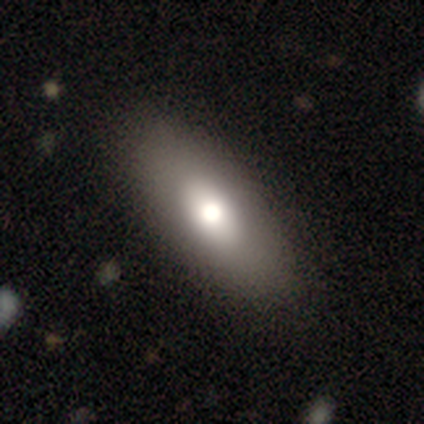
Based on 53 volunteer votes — smooth 60%, featured or disk 36%, star or artifact 4%. Down the decision tree: how rounded — in between (91%); merging — none (88%).